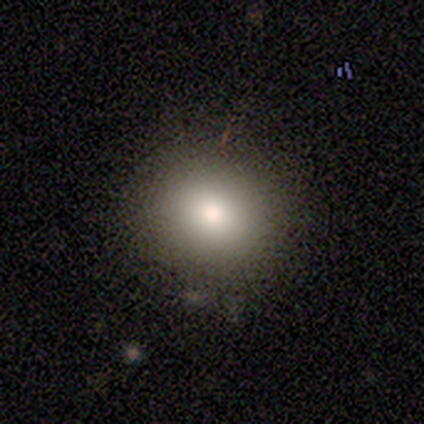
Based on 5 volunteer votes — Smooth or featured? smooth (100%)
How rounded? round (100%)
Merging? none (100%)